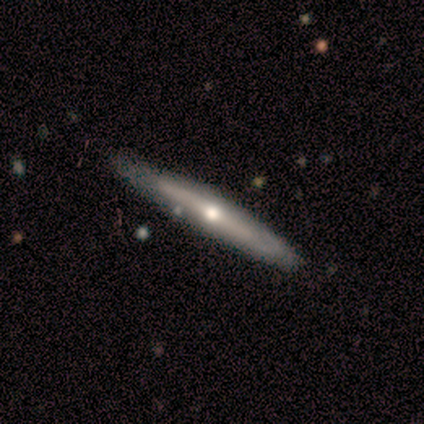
A featured or disk galaxy (80%) viewed edge-on (100%) with a rounded central bulge (100%).

Vote fractions:
- Smooth or featured? featured or disk: 80% / smooth: 20% / star or artifact: 0%
- Edge-on disk? yes: 100% / no: 0%
- Edge-on bulge? rounded: 100% / boxy: 0% / none: 0%
- Merging? none: 100% / minor disturbance: 0% / major disturbance: 0% / merger: 0%